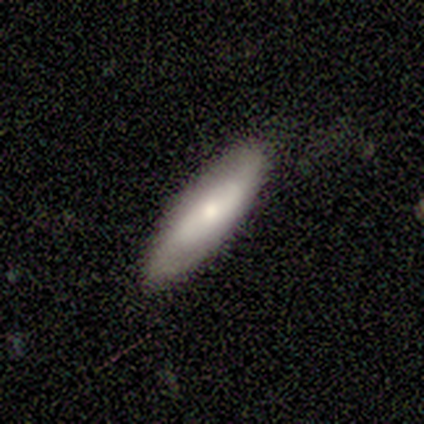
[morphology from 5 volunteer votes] This is likely a smooth galaxy (60%). How rounded: clearly in between (100%). Merging: clearly none (80%).